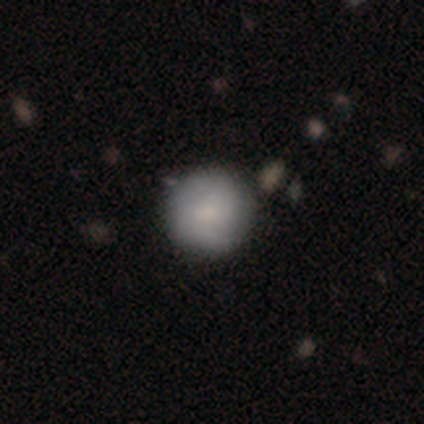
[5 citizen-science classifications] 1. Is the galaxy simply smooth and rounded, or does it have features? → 80% smooth, 20% featured or disk, 0% star or artifact.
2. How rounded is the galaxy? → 100% round, 0% in between, 0% cigar-shaped.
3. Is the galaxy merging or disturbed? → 100% none, 0% minor disturbance, 0% major disturbance, 0% merger.